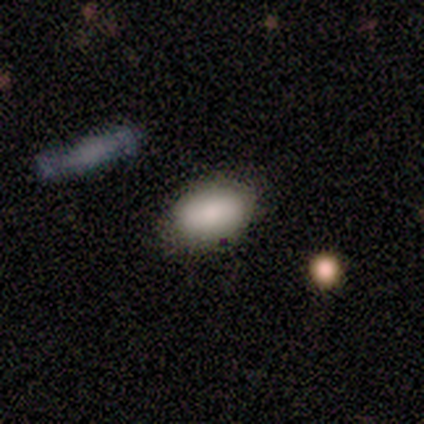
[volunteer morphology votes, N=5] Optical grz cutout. It shows a smooth galaxy with no disk features (100%) that is in between round and cigar-shaped (100%). Merging: none (80%).